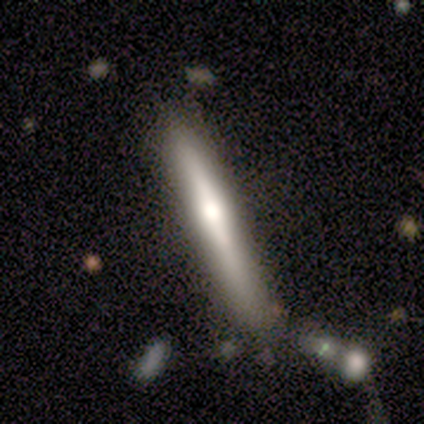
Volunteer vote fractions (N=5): Smooth or featured?
  - smooth: 80% *
  - featured or disk: 20%
  - star or artifact: 0%
How rounded?
  - cigar-shaped: 100% *
  - round: 0%
  - in between: 0%
Merging?
  - none: 60% *
  - minor disturbance: 20%
  - major disturbance: 20%
  - merger: 0%